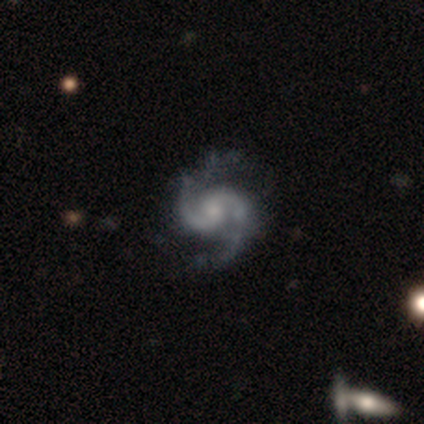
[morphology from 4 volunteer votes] smooth-or-featured: featured or disk: 75% | smooth: 25% | star or artifact: 0%
  disk-edge-on: no: 100% | yes: 0%
    bar: weak: 67% | no: 33% | strong: 0%
    has-spiral-arms: yes: 100% | no: 0%
      spiral-winding: medium: 67% | loose: 33% | tight: 0%
      spiral-arm-count: 2: 100% | 1: 0% | 3: 0% | 4: 0% | more than 4: 0% | can't tell: 0%
    bulge-size: moderate: 33% (tied) | small: 33% (tied) | none: 33% (tied) | dominant: 0% | large: 0%
  merging: none: 50% (tied) | major disturbance: 50% (tied) | minor disturbance: 0% | merger: 0%